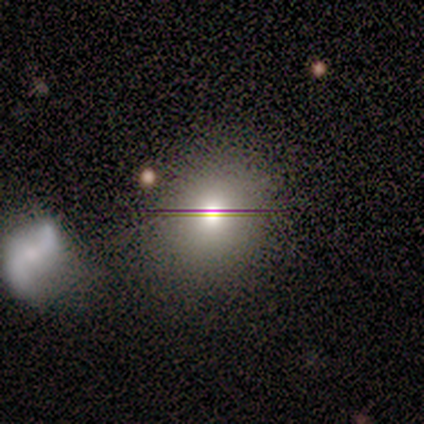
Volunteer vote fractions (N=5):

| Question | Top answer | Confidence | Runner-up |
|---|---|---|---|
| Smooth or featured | smooth | 60% | star or artifact (40%) |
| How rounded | round | 100% | — |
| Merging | none | 67% | merger (33%) |